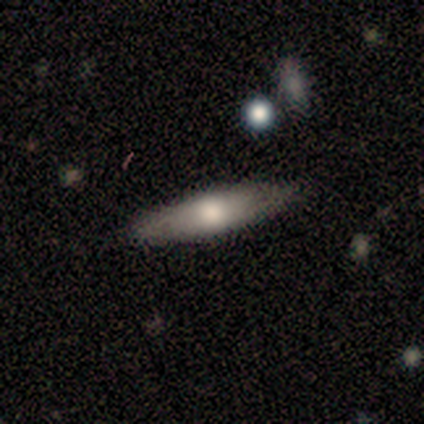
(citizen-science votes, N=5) Morphology: type=smooth (60%); roundness=in between (67%); merging=none (100%).